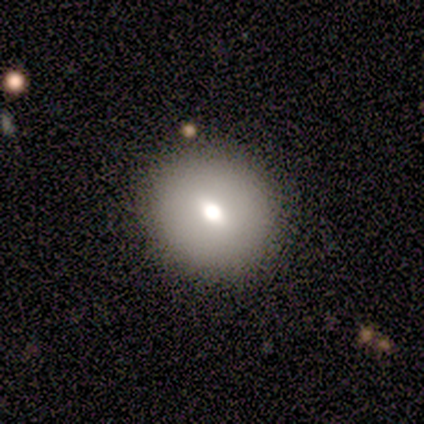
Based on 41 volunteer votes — A smooth galaxy with no disk features (61%) that is round (80%). Merging: none (89%).